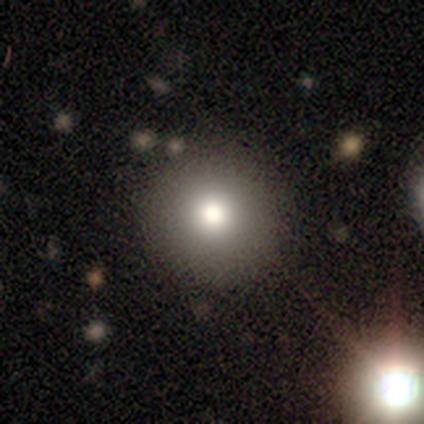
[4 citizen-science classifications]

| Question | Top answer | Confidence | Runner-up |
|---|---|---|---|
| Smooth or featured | smooth | 75% | star or artifact (25%) |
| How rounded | round | 100% | — |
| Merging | none | 67% | merger (33%) |